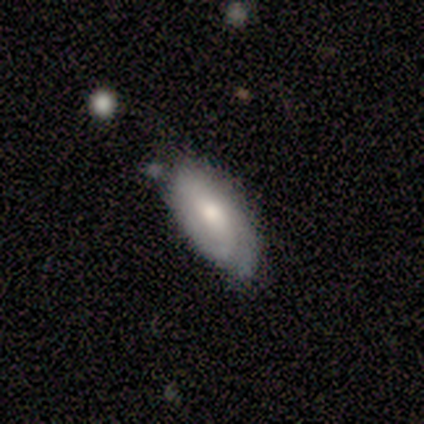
Q: Smooth or featured?
A: featured or disk (62%); runner-up: smooth (38%)
Q: Edge-on disk?
A: no (80%); runner-up: yes (20%)
Q: Bar?
A: weak (75%); runner-up: no (25%)
Q: Spiral arms?
A: yes (75%); runner-up: no (25%)
Q: Spiral winding?
A: tight (100%)
Q: Spiral arm count?
A: 2 (67%); runner-up: 3 (33%)
Q: Bulge size?
A: moderate (75%); runner-up: large (25%)
Q: Merging?
A: minor disturbance (38%); runner-up: none (25%)